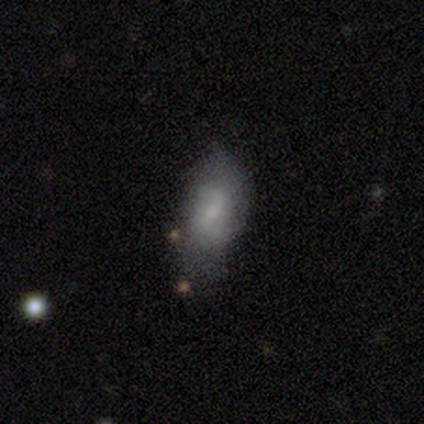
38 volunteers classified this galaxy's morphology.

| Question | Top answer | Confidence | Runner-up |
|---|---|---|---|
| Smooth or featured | smooth | 47% | featured or disk (45%) |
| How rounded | in between | 78% | cigar-shaped (17%) |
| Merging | none | 57% | minor disturbance (26%) |